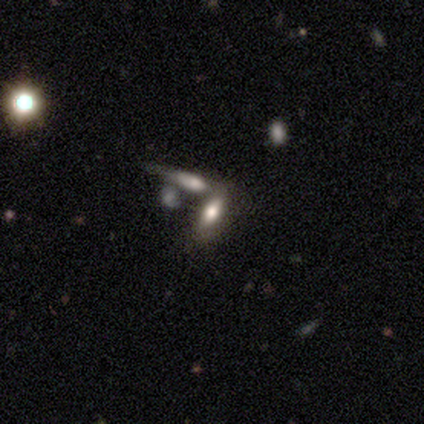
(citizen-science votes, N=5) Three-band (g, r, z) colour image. It shows a smooth galaxy with no disk features (100%) that is in between round and cigar-shaped (80%). Merging: none (80%).